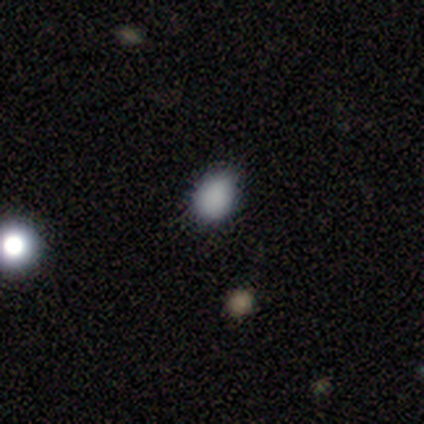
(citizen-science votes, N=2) Smooth or featured: smooth — 100%
How rounded: in between — 100%
Merging: none — 100%